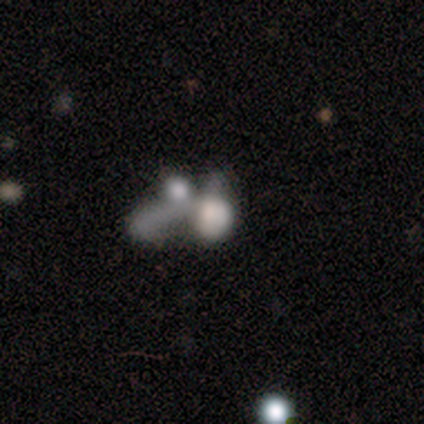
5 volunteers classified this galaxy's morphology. smooth_or_featured: featured or disk (p=0.60) [alt: smooth p=0.40]
disk_edge_on: no (p=1.00)
bar: no (p=1.00)
has_spiral_arms: no (p=1.00)
bulge_size: none (p=1.00)
merging: merger (p=0.60) [alt: major disturbance p=0.40]